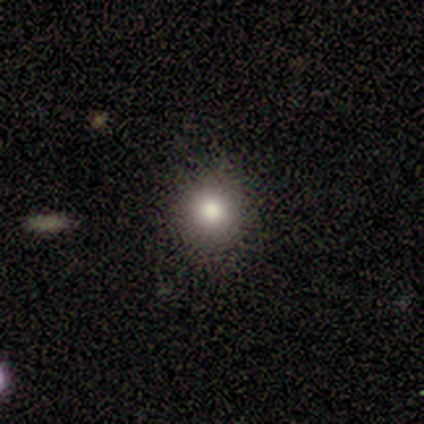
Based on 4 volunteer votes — Smooth or featured: smooth — 75% (featured or disk — 25%)
How rounded: round — 100%
Merging: none — 75% (minor disturbance — 25%)